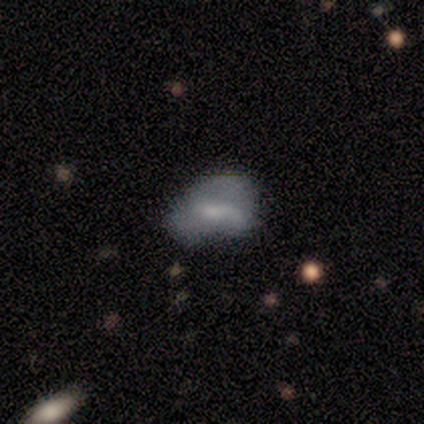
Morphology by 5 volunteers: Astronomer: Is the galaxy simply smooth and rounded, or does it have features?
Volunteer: smooth — 100%.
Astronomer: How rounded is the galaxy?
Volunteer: in between — 100%.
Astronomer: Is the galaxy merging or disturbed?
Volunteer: none — 40%, tied with minor disturbance at 40%.